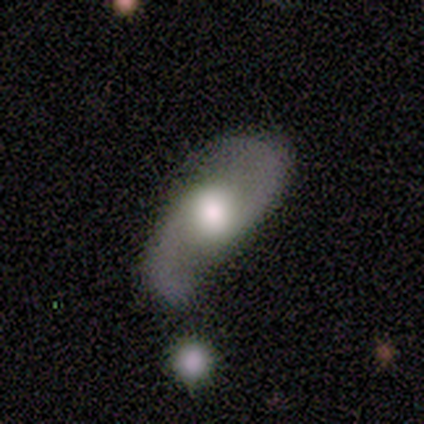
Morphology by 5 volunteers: Volunteers were most divided on "bulge size" (2-way tie): large: 40%, moderate: 40%, dominant: 20%, small: 0%, none: 0%. More confident: smooth or featured — featured or disk (100%); edge-on disk — no (100%); spiral arms — yes (100%); spiral arm count — 2 (100%); spiral winding — loose (80%); merging — none (80%); bar — no (60%).